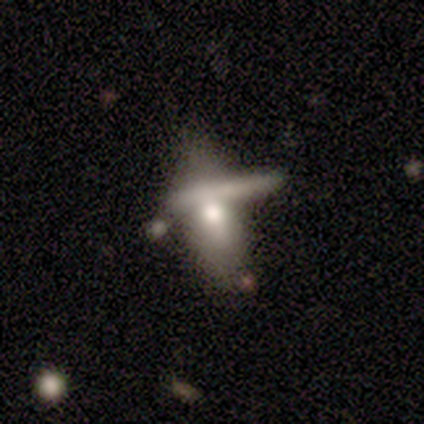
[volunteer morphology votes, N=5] Smooth or featured?
  - smooth: 40% * (tied)
  - featured or disk: 40% * (tied)
  - star or artifact: 20%
How rounded?
  - in between: 50% * (tied)
  - cigar-shaped: 50% * (tied)
  - round: 0%
Merging?
  - none: 50% *
  - major disturbance: 25%
  - merger: 25%
  - minor disturbance: 0%